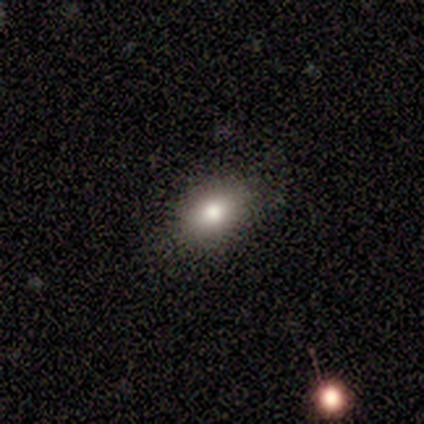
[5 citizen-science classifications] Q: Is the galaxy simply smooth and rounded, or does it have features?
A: smooth — 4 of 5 (80%).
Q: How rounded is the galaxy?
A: in between — 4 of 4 (100%).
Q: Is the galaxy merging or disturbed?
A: none — 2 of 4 (50%, tied with minor disturbance).